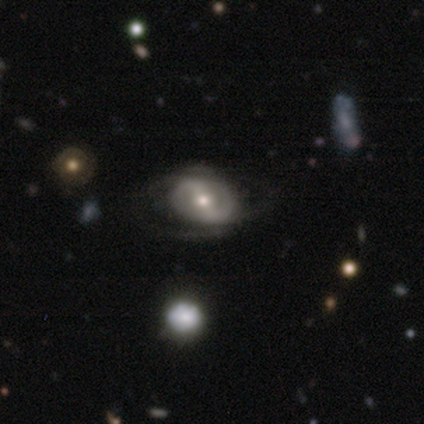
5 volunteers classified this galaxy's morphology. type=featured or disk (60%); edge-on=no (100%); bar=strong (67%); spiral arms=no (67%); bulge=small (67%); merging=none (50%, tied with minor disturbance).